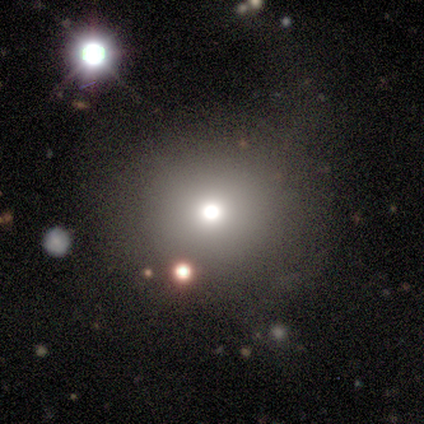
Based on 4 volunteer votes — A smooth galaxy with no disk features (50%, tied with star or artifact) that is round (100%). Merging: none (100%).